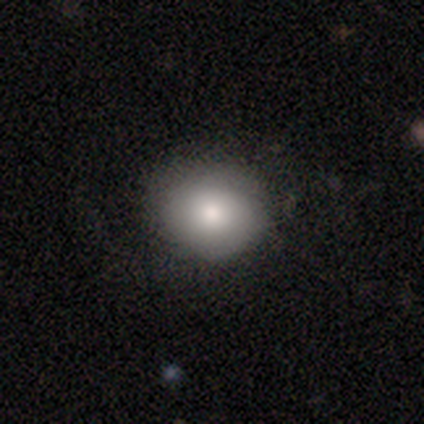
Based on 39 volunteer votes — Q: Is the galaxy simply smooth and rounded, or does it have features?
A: smooth — 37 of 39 (95%).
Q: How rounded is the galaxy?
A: round — 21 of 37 (57%).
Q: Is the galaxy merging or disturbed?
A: none — 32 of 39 (82%).